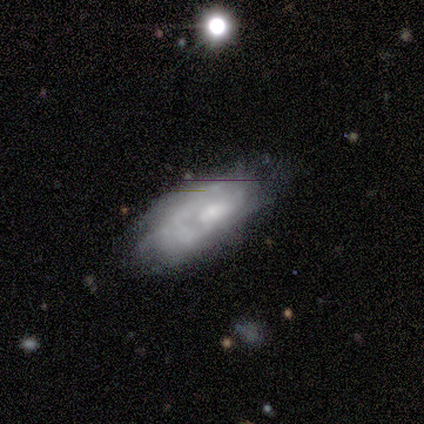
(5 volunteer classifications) Morphology: type=featured or disk (80%); edge-on=no (100%); bar=weak (50%, tied with no); spiral arms=yes (75%); winding=medium (67%); arm count=can't tell (67%); bulge=moderate (50%); merging=none (100%).